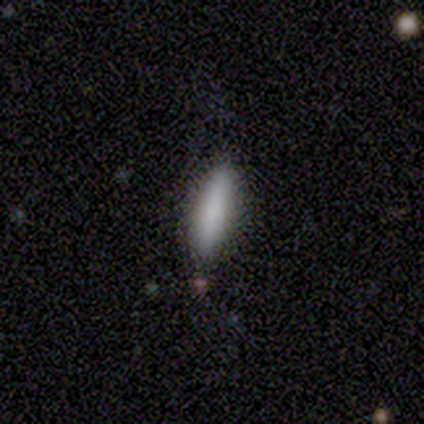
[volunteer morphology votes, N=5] smooth_or_featured: smooth (p=0.80) [alt: featured or disk p=0.20]
how_rounded: cigar-shaped (p=0.75) [alt: in between p=0.25]
merging: none (p=0.60) [alt: minor disturbance p=0.20]